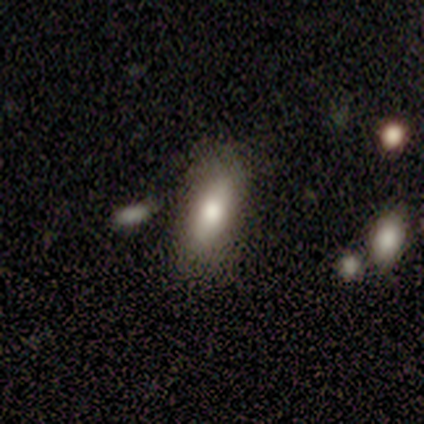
Smooth or featured?
  - smooth: 100% *
  - featured or disk: 0%
  - star or artifact: 0%
How rounded?
  - in between: 67% *
  - cigar-shaped: 33%
  - round: 0%
Merging?
  - none: 67% *
  - minor disturbance: 33%
  - major disturbance: 0%
  - merger: 0%